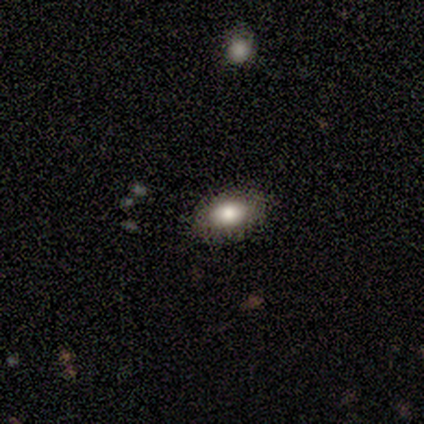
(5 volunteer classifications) Smooth or featured: smooth — 60% (featured or disk — 40%)
How rounded: in between — 100%
Merging: none — 100%